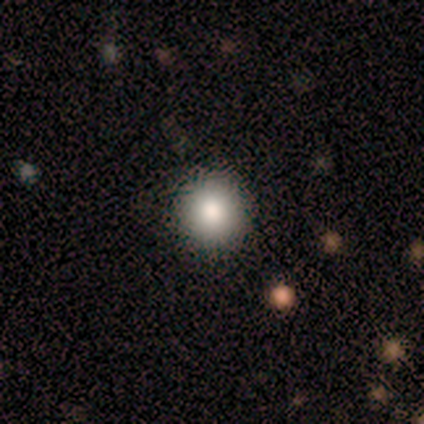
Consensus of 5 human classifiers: A smooth galaxy with no disk features (100%) that is round (80%). Merging: none (100%).